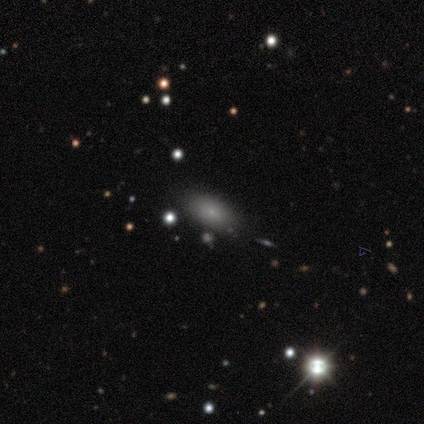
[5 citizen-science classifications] Morphology: type=smooth (80%); roundness=in between (100%); merging=none (100%).